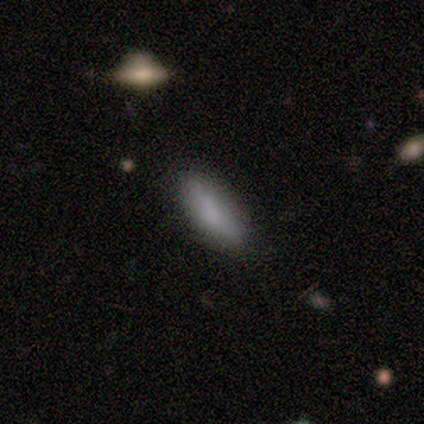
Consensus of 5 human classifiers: Morphology: type=smooth (100%); roundness=in between (60%); merging=none (100%).